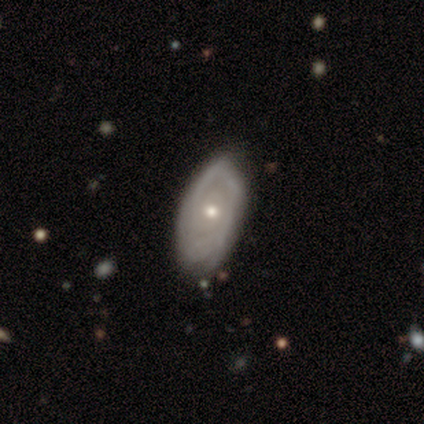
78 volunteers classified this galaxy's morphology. type=featured or disk (69%); edge-on=no (96%); bar=no (87%); spiral arms=yes (75%); winding=tight (69%); arm count=can't tell (51%); bulge=small (52%); merging=none (35%).